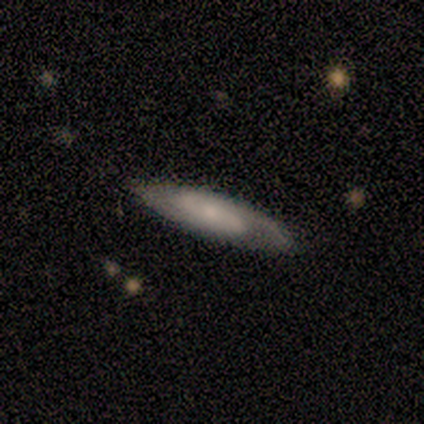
Smooth or featured?
  - featured or disk: 100% *
  - smooth: 0%
  - star or artifact: 0%
Edge-on disk?
  - no: 80% *
  - yes: 20%
Bar?
  - no: 75% *
  - strong: 25%
  - weak: 0%
Spiral arms?
  - yes: 100% *
  - no: 0%
Spiral winding?
  - medium: 75% *
  - loose: 25%
  - tight: 0%
Spiral arm count?
  - 2: 75% *
  - 1: 25%
  - 3: 0%
  - 4: 0%
  - more than 4: 0%
  - can't tell: 0%
Bulge size?
  - moderate: 50% * (tied)
  - small: 50% * (tied)
  - dominant: 0%
  - large: 0%
  - none: 0%
Merging?
  - none: 80% *
  - minor disturbance: 20%
  - major disturbance: 0%
  - merger: 0%